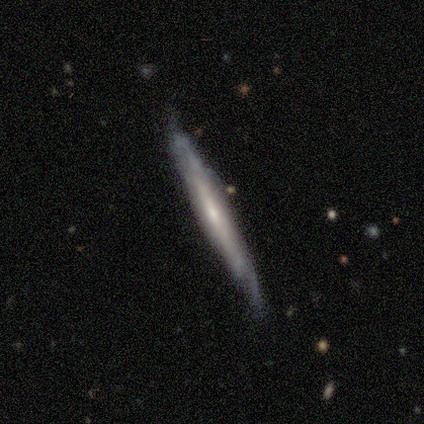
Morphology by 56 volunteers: This is likely a featured or disk galaxy (66%). It is clearly viewed edge-on (86%). Edge-on bulge: possibly none (53%). Merging: likely none (60%).